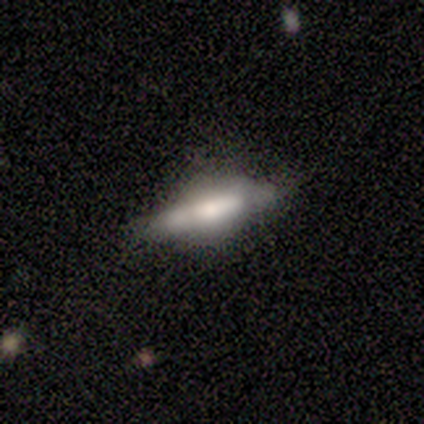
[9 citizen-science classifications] Smooth or featured? featured or disk (89%)
Edge-on disk? yes (100%)
Edge-on bulge? rounded (75%)
Merging? none (67%)